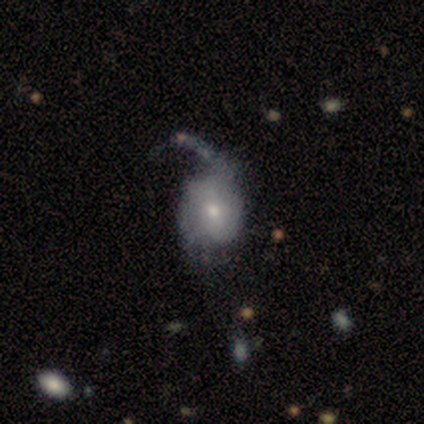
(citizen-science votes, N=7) Smooth or featured? featured or disk (71%)
Edge-on disk? no (100%)
Bar? no (100%)
Spiral arms? yes (60%)
Spiral winding? medium (67%)
Spiral arm count? 2 (67%)
Bulge size? moderate (60%)
Merging? major disturbance (57%)